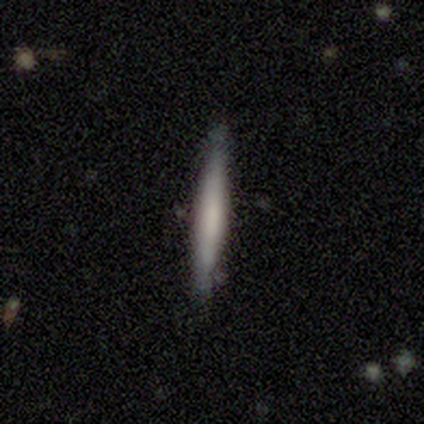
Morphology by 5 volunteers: A smooth galaxy with no disk features (80%) that is cigar-shaped (100%). Merging: none (100%).